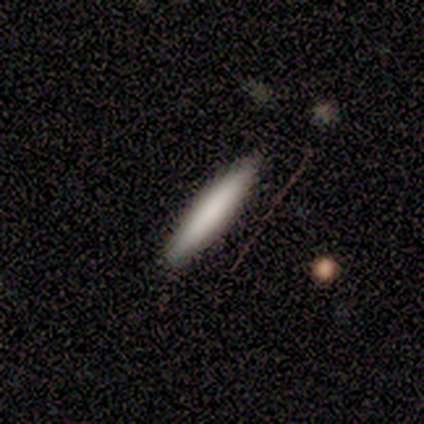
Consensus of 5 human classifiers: A smooth galaxy with no disk features (80%) that is cigar-shaped (100%). Merging: none (100%).